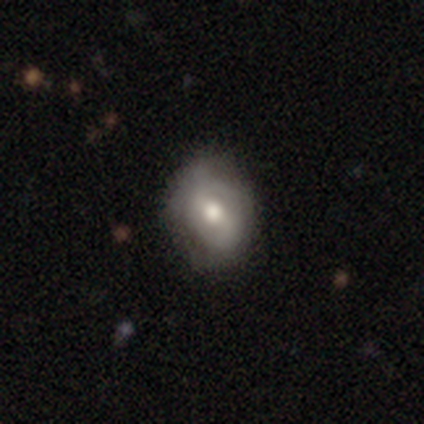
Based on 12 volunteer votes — Smooth or featured?
  - smooth: 50% * (tied)
  - featured or disk: 50% * (tied)
  - star or artifact: 0%
How rounded?
  - in between: 67% *
  - round: 33%
  - cigar-shaped: 0%
Merging?
  - none: 67% *
  - minor disturbance: 33%
  - major disturbance: 0%
  - merger: 0%